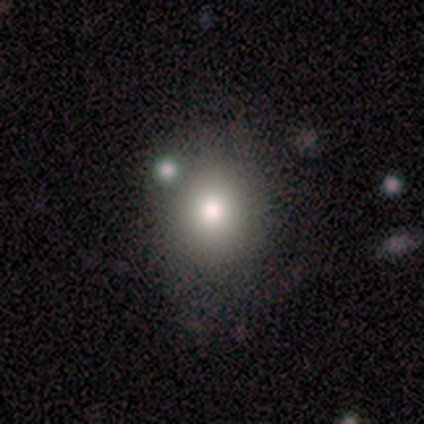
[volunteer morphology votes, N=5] smooth_or_featured: smooth (p=0.80) [alt: featured or disk p=0.20]
how_rounded: round (p=0.75) [alt: in between p=0.25]
merging: none (p=0.60) [alt: major disturbance p=0.20]